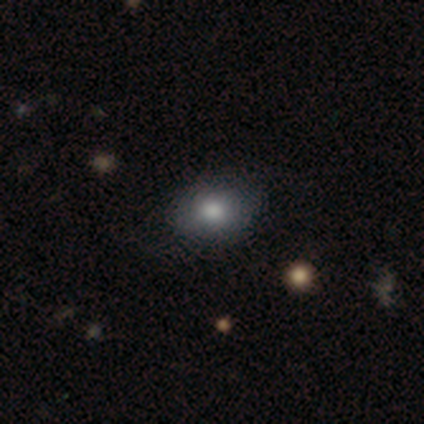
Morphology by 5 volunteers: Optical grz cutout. It shows a smooth galaxy with no disk features (80%) that is in between round and cigar-shaped (100%). Merging: none (80%).